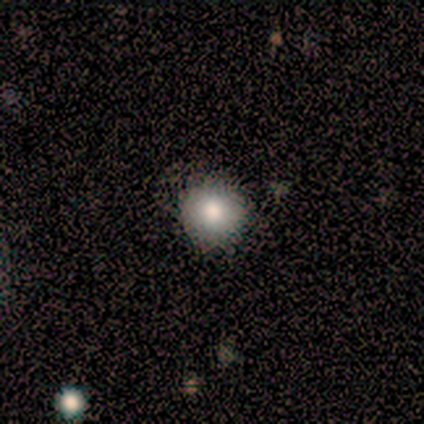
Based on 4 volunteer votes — Overall: smooth (75%). How rounded: round (100%). Merging: none (100%).